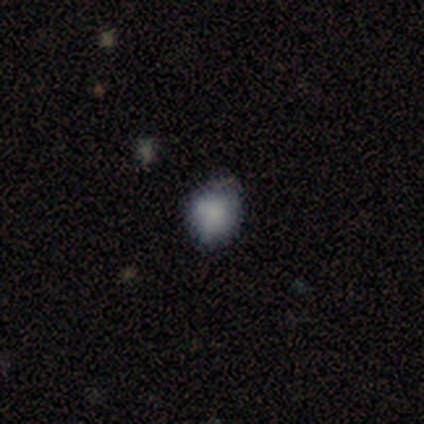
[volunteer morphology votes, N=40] Volunteers were most divided on "how rounded": round: 54%, in between: 46%, cigar-shaped: 0%. More confident: smooth or featured — smooth (88%); merging — none (58%).